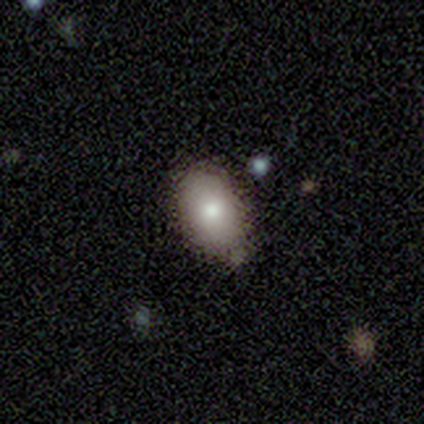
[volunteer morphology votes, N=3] A smooth galaxy with no disk features (100%) that is in between round and cigar-shaped (100%).

Vote fractions:
- Smooth or featured? smooth: 100% / featured or disk: 0% / star or artifact: 0%
- How rounded? in between: 100% / round: 0% / cigar-shaped: 0%
- Merging? none: 100% / minor disturbance: 0% / major disturbance: 0% / merger: 0%